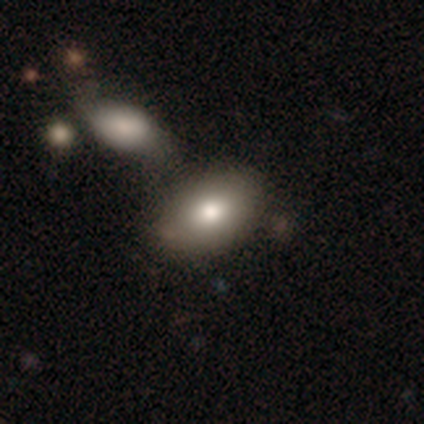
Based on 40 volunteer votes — smooth_or_featured: smooth (p=0.88) [alt: featured or disk p=0.07]
how_rounded: in between (p=0.94) [alt: round p=0.03]
merging: none (p=0.68) [alt: merger p=0.16]